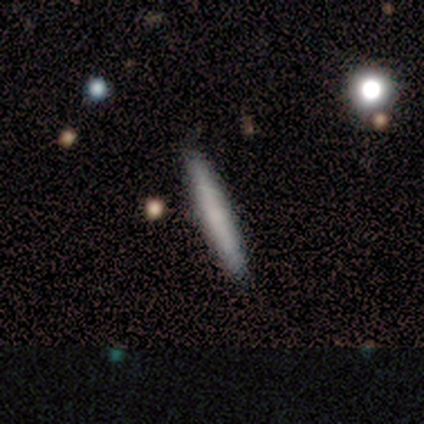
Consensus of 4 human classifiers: A smooth galaxy with no disk features (75%) that is cigar-shaped (100%).

Vote fractions:
- Smooth or featured? smooth: 75% / featured or disk: 25% / star or artifact: 0%
- How rounded? cigar-shaped: 100% / round: 0% / in between: 0%
- Merging? none: 100% / minor disturbance: 0% / major disturbance: 0% / merger: 0%